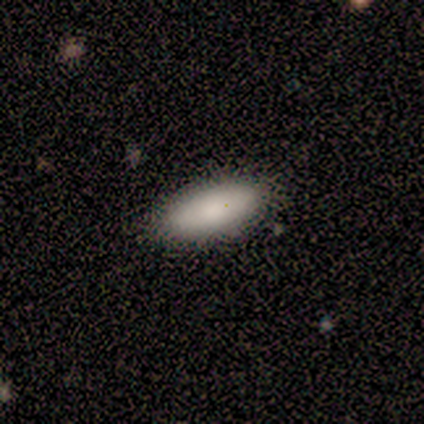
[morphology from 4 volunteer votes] smooth-or-featured: smooth: 100% | featured or disk: 0% | star or artifact: 0%
  how-rounded: in between: 100% | round: 0% | cigar-shaped: 0%
  merging: none: 100% | minor disturbance: 0% | major disturbance: 0% | merger: 0%